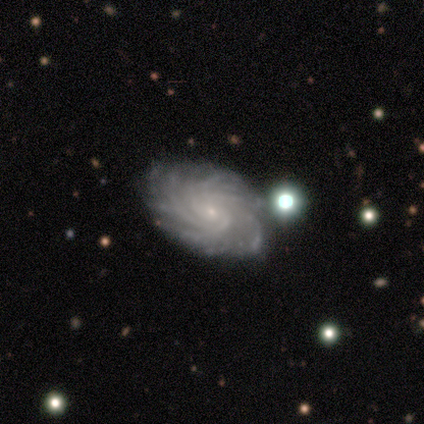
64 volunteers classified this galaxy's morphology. Overall: featured or disk (94%). Edge-on disk: no (98%). Bar: no (78%). Spiral arms: yes (98%). Spiral arm count: more than 4 (72%). Spiral winding: tight (72%). Bulge size: small (88%). Merging: none (50%; minor disturbance 12%).